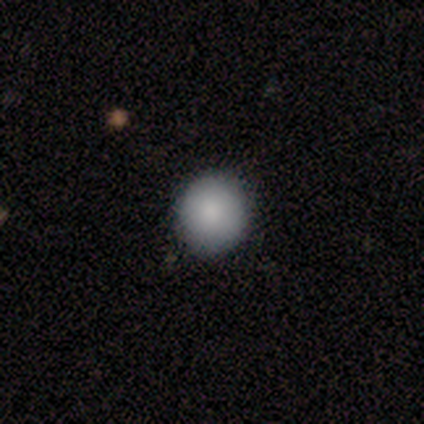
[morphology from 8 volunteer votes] Q: Smooth or featured?
A: smooth (100%)
Q: How rounded?
A: round (100%)
Q: Merging?
A: none (100%)